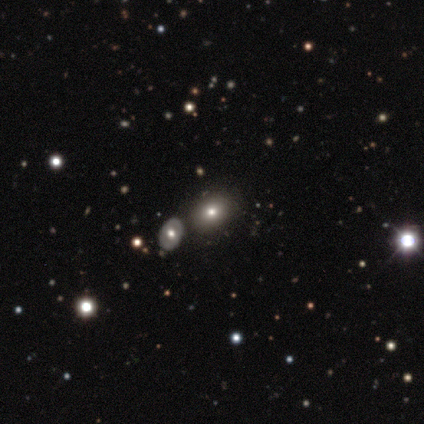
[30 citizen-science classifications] A smooth galaxy with no disk features (57%) that is in between round and cigar-shaped (59%). Merging: none (83%).